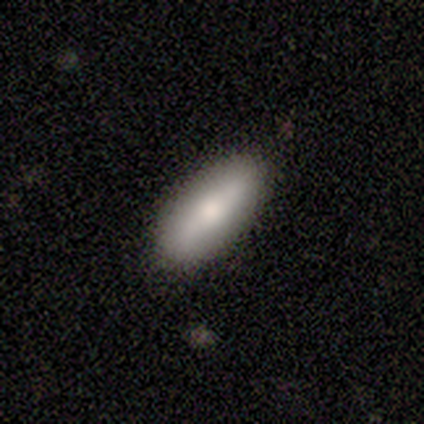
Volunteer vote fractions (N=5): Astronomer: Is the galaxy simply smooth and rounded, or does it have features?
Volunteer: smooth — 60% (runner-up: featured or disk, 40%).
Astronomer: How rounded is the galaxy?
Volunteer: in between — 67%.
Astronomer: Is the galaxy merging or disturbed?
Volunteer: none — 100%.